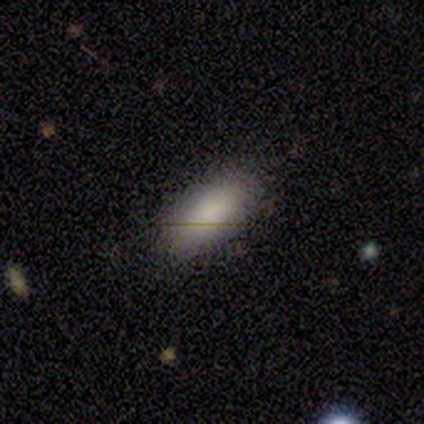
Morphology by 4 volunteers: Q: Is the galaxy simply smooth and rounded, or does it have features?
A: smooth — 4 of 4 (100%).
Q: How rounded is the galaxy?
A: in between — 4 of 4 (100%).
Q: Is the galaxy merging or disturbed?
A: none — 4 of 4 (100%).